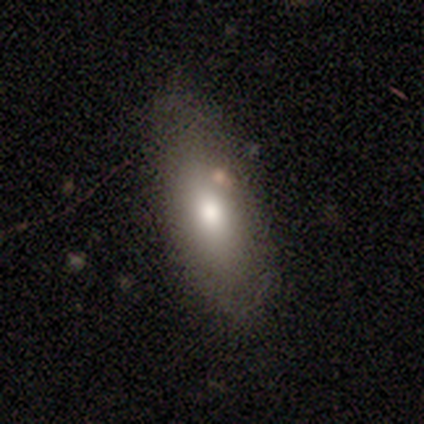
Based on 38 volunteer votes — Overall: smooth (63%; featured or disk 26%). How rounded: in between (75%). Merging: none (85%).